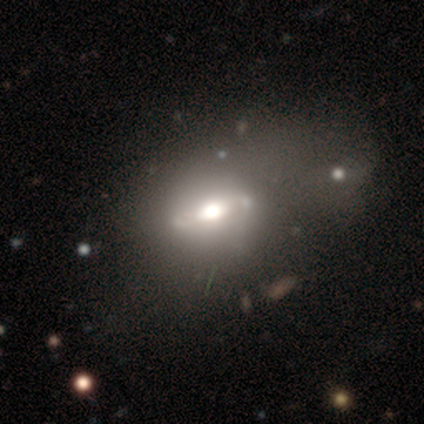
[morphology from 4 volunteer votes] Smooth or featured? 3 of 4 (75%) said featured or disk. Edge-on disk? 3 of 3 (100%) said no. Bar? 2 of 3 (67%) said strong. Spiral arms? 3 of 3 (100%) said no. Bulge size? 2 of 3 (67%) said large. Merging? 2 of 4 (50%, tied with merger) said none.